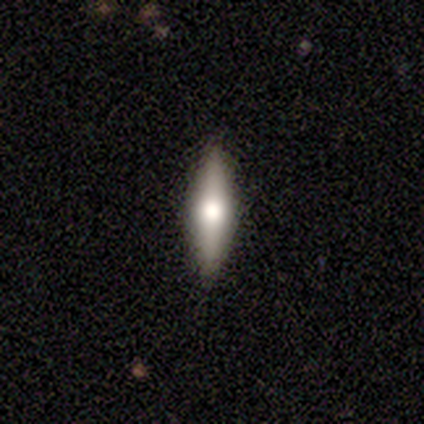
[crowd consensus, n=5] smooth_or_featured: featured or disk (p=0.60) [alt: smooth p=0.40]
disk_edge_on: yes (p=1.00)
edge_on_bulge: rounded (p=1.00)
merging: none (p=0.80) [alt: minor disturbance p=0.20]